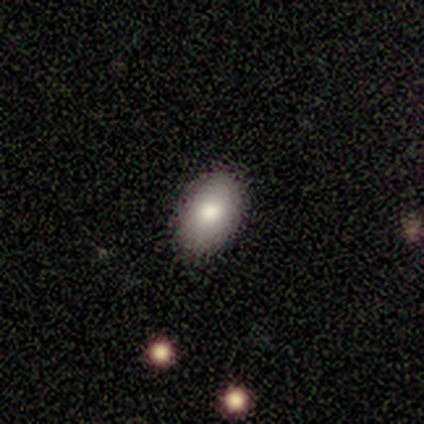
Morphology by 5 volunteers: A smooth galaxy with no disk features (100%) that is in between round and cigar-shaped (80%).

Vote fractions:
- Smooth or featured? smooth: 100% / featured or disk: 0% / star or artifact: 0%
- How rounded? in between: 80% / round: 20% / cigar-shaped: 0%
- Merging? none: 80% / minor disturbance: 20% / major disturbance: 0% / merger: 0%